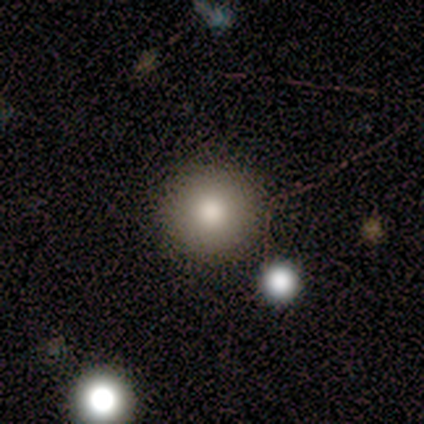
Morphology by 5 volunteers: type=smooth (100%); roundness=round (100%); merging=none (100%).